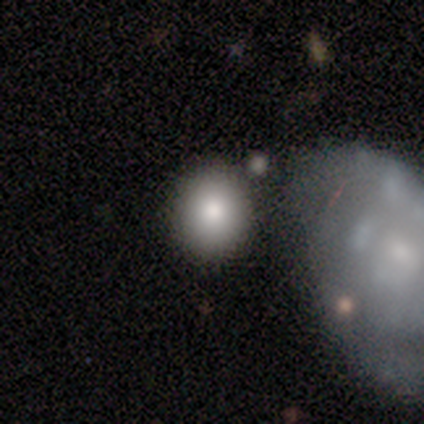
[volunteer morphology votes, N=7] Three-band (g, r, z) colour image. It shows a smooth galaxy with no disk features (57%) that is round (75%). Merging: none (40%, tied with merger).